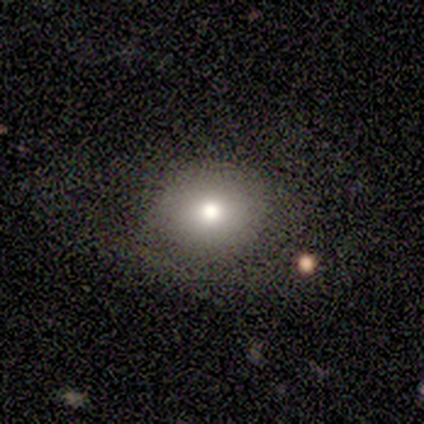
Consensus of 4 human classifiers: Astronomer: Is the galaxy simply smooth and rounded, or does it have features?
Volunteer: smooth — 75%.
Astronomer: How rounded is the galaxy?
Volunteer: round — 100%.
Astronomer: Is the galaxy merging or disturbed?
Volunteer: none — 67%.